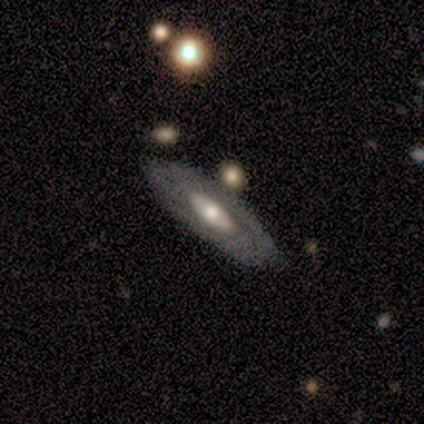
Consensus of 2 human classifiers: A smooth galaxy with no disk features (50%, tied with featured or disk) that is round (100%). Merging: none (100%).